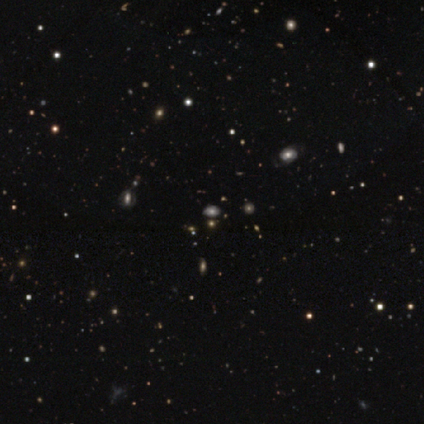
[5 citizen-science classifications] Smooth or featured?
  - smooth: 60% *
  - star or artifact: 40%
  - featured or disk: 0%
How rounded?
  - round: 100% *
  - in between: 0%
  - cigar-shaped: 0%
Merging?
  - none: 100% *
  - minor disturbance: 0%
  - major disturbance: 0%
  - merger: 0%